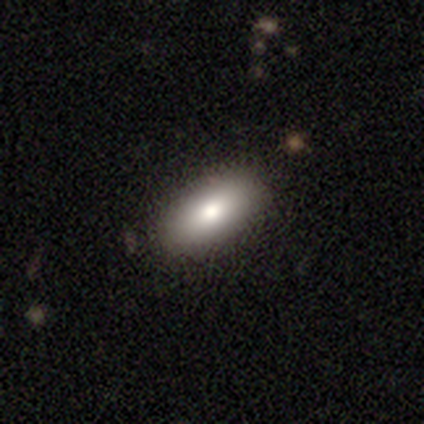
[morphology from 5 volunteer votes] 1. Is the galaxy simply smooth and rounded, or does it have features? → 80% smooth, 20% featured or disk, 0% star or artifact.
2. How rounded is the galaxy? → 75% in between, 25% round, 0% cigar-shaped.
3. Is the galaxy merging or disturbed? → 80% none, 20% major disturbance, 0% minor disturbance, 0% merger.